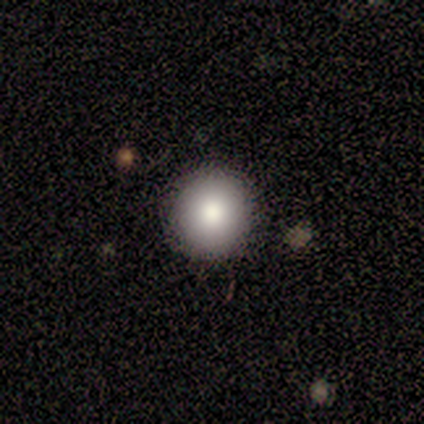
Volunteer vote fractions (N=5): Smooth or featured: smooth — 80% (featured or disk — 20%)
How rounded: round — 100%
Merging: none — 100%